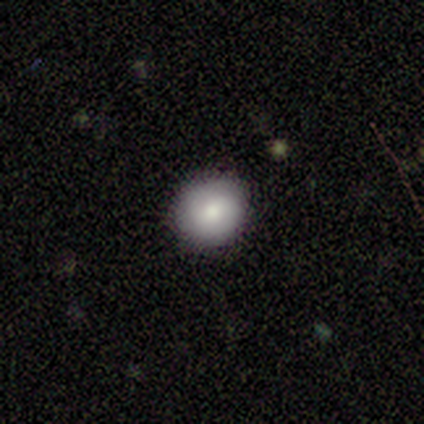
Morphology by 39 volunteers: Smooth or featured?
  - smooth: 77% *
  - featured or disk: 15%
  - star or artifact: 8%
How rounded?
  - round: 87% *
  - in between: 13%
  - cigar-shaped: 0%
Merging?
  - none: 92% *
  - minor disturbance: 8%
  - major disturbance: 0%
  - merger: 0%